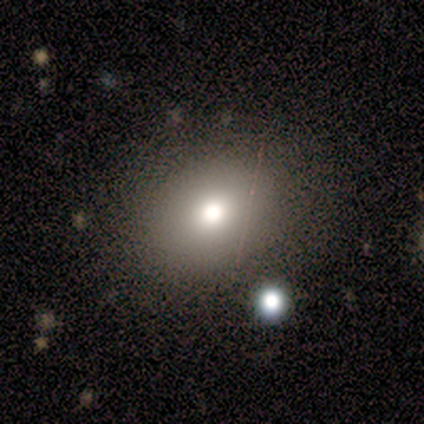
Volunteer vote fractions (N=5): Smooth or featured? smooth (80%)
How rounded? round (50%, tied with in between)
Merging? none (100%)